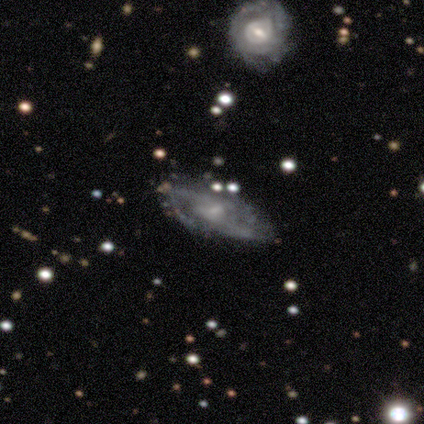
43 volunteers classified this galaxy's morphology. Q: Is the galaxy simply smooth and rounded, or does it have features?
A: featured or disk — 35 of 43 (81%).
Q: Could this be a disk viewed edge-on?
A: no — 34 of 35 (97%).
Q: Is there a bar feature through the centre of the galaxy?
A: weak — 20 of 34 (59%).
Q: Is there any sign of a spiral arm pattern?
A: yes — 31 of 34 (91%).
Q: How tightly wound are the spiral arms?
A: medium — 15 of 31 (48%).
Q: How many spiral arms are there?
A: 2 — 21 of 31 (68%).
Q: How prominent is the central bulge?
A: small — 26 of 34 (76%).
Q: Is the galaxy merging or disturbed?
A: none — 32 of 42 (76%).